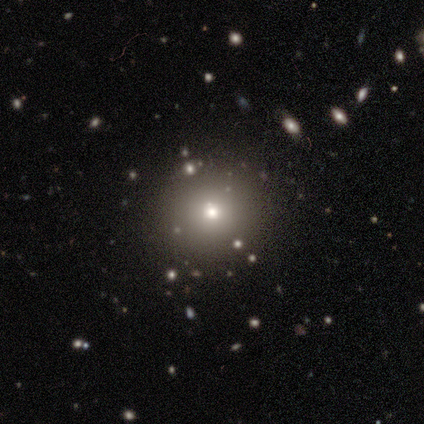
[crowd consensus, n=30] A smooth galaxy with no disk features (80%) that is round (92%).

Vote fractions:
- Smooth or featured? smooth: 80% / star or artifact: 17% / featured or disk: 3%
- How rounded? round: 92% / in between: 8% / cigar-shaped: 0%
- Merging? none: 96% / merger: 4% / minor disturbance: 0% / major disturbance: 0%